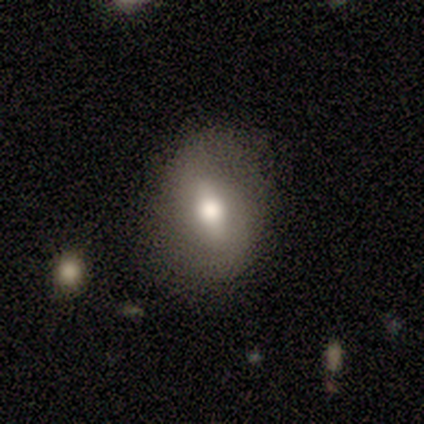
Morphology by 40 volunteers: A smooth galaxy with no disk features (60%) that is in between round and cigar-shaped (71%).

Vote fractions:
- Smooth or featured? smooth: 60% / featured or disk: 32% / star or artifact: 8%
- How rounded? in between: 71% / round: 29% / cigar-shaped: 0%
- Merging? none: 70% / minor disturbance: 24% / major disturbance: 5% / merger: 0%